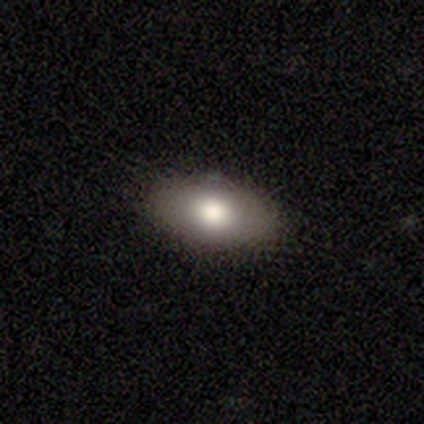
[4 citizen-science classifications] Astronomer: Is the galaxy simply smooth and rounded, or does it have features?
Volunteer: smooth — 50%, tied with featured or disk at 50%.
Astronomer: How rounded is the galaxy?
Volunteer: in between — 50%, tied with cigar-shaped at 50%.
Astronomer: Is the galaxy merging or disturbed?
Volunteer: none — 100%.